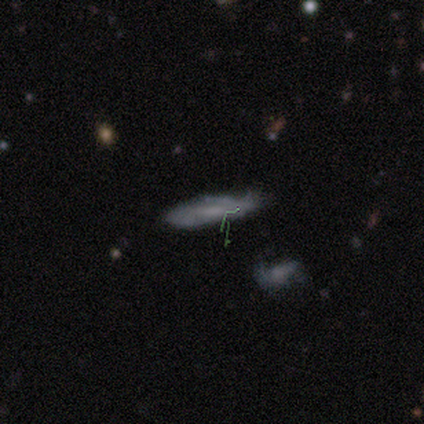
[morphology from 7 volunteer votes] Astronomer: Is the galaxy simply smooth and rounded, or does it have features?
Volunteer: smooth — 57%.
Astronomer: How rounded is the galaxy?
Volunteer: in between — 50%, tied with cigar-shaped at 50%.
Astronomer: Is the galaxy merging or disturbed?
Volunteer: minor disturbance — 60% (runner-up: none, 40%).